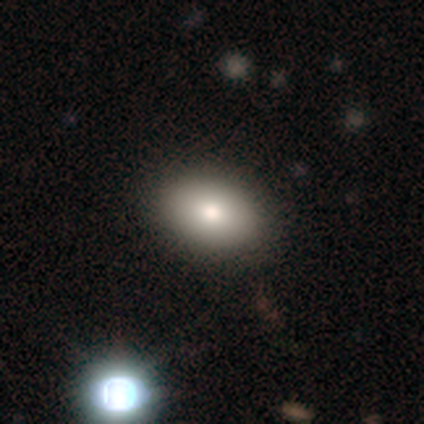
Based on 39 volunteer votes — smooth-or-featured: smooth: 77% | featured or disk: 23% | star or artifact: 0%
  how-rounded: in between: 83% | round: 17% | cigar-shaped: 0%
  merging: none: 51% | merger: 5% | minor disturbance: 3% | major disturbance: 3%